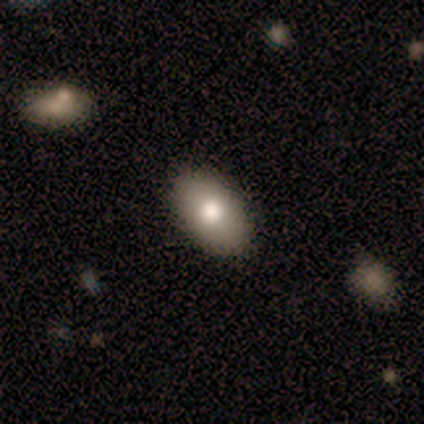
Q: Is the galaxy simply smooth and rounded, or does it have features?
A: smooth — 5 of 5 (100%).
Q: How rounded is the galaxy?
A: in between — 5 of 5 (100%).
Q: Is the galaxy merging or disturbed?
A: none — 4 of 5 (80%).